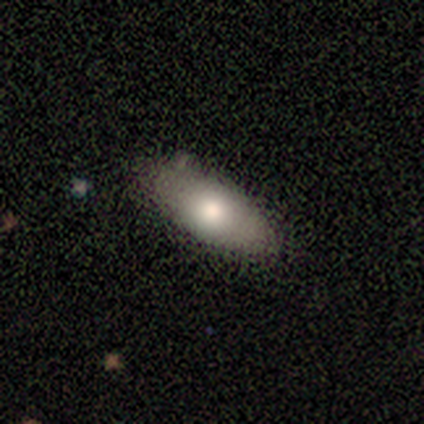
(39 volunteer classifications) smooth-or-featured: smooth: 82% | featured or disk: 13% | star or artifact: 5%
  how-rounded: in between: 78% | cigar-shaped: 16% | round: 6%
  merging: none: 78% | minor disturbance: 14% | major disturbance: 5% | merger: 3%